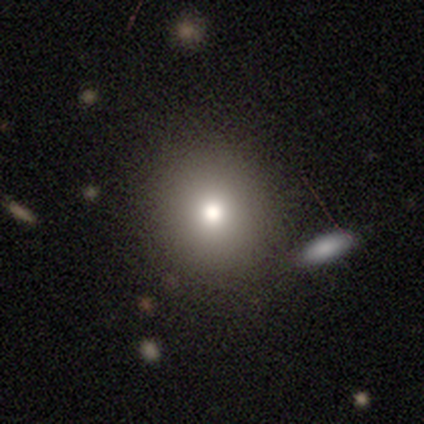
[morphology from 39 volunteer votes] Q: Smooth or featured?
A: smooth (82%); runner-up: star or artifact (15%)
Q: How rounded?
A: round (91%); runner-up: in between (9%)
Q: Merging?
A: none (45%); runner-up: minor disturbance (6%)